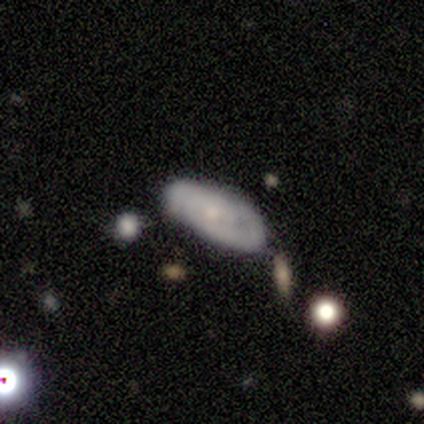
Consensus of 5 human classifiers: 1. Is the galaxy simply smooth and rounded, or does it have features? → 60% featured or disk, 40% smooth, 0% star or artifact.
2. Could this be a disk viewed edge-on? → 67% no, 33% yes.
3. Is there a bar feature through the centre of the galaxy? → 50% weak (tied), 50% no (tied), 0% strong.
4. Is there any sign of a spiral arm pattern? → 50% yes (tied), 50% no (tied).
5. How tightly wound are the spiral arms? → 100% tight, 0% medium, 0% loose.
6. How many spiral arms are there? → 100% 2, 0% 1, 0% 3, 0% 4, 0% more than 4, 0% can't tell.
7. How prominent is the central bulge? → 50% small (tied), 50% none (tied), 0% dominant, 0% large, 0% moderate.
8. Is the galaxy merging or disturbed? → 60% none, 20% minor disturbance, 20% merger, 0% major disturbance.